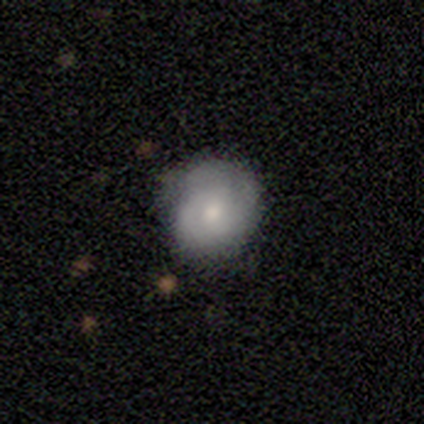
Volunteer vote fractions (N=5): Smooth or featured: featured or disk — 60% (smooth — 40%)
Edge-on disk: no — 100%
Bar: no — 67% (weak — 33%)
Spiral arms: yes — 100%
Spiral winding: tight — 67% (medium — 33%)
Spiral arm count: 2 — 33% (tied with 3 — 33%; can't tell — 33%)
Bulge size: moderate — 100%
Merging: none — 100%